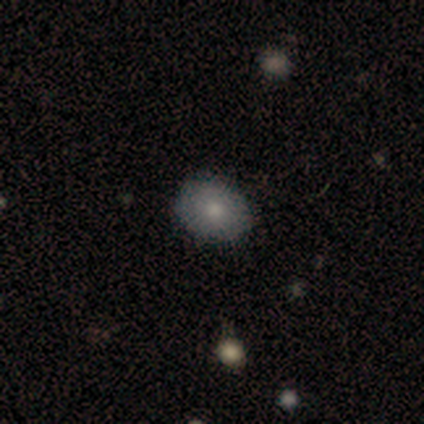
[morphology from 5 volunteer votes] smooth-or-featured: smooth: 100% | featured or disk: 0% | star or artifact: 0%
  how-rounded: in between: 60% | round: 40% | cigar-shaped: 0%
  merging: none: 80% | merger: 20% | minor disturbance: 0% | major disturbance: 0%